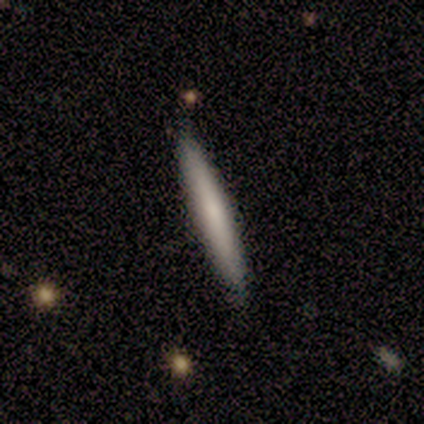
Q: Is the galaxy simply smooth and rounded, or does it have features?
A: smooth — 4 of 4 (100%).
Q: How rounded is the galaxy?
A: cigar-shaped — 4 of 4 (100%).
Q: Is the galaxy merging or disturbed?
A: none — 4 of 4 (100%).